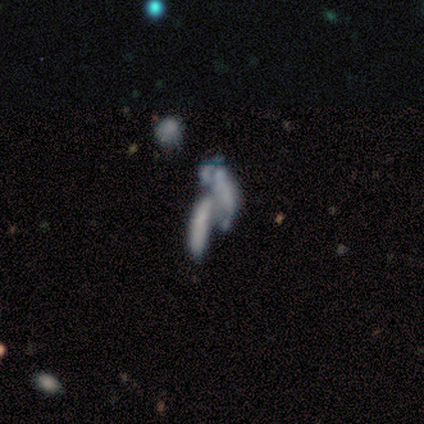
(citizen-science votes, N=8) Smooth or featured: smooth — 38% (tied with featured or disk — 38%)
How rounded: cigar-shaped — 67% (in between — 33%)
Merging: merger — 83% (major disturbance — 17%)